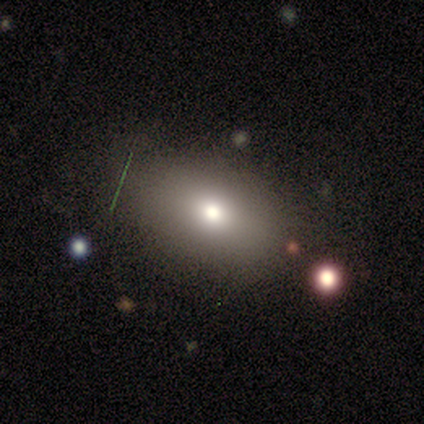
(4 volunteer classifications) This appears to be a smooth galaxy with no disk features (50%) that is round (100%). Merging: none (33%, tied with minor disturbance and major disturbance).